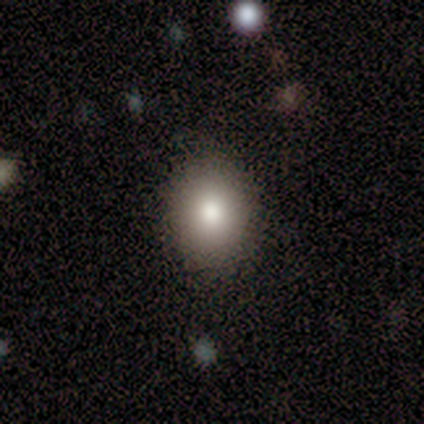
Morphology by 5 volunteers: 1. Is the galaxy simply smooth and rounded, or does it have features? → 100% smooth, 0% featured or disk, 0% star or artifact.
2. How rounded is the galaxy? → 60% round, 40% in between, 0% cigar-shaped.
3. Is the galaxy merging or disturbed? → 100% none, 0% minor disturbance, 0% major disturbance, 0% merger.